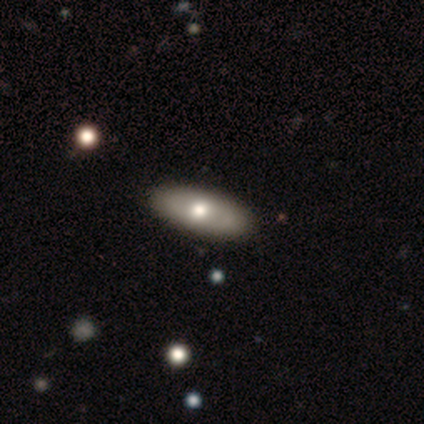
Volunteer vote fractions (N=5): Smooth or featured: smooth — 60% (featured or disk — 40%)
How rounded: in between — 100%
Merging: none — 100%